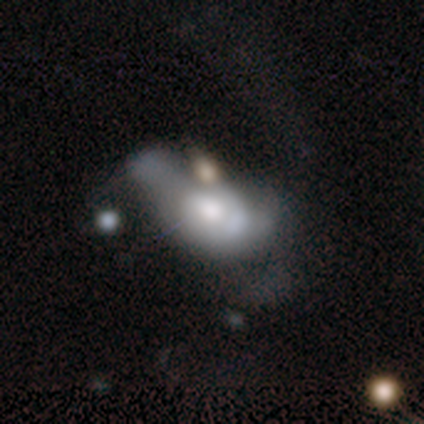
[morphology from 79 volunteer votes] featured or disk 62%, smooth 32%, star or artifact 6%. Down the decision tree: edge-on disk — no (98%); bar — no (83%); spiral arms — no (65%); bulge size — moderate (56%); merging — major disturbance (24%).